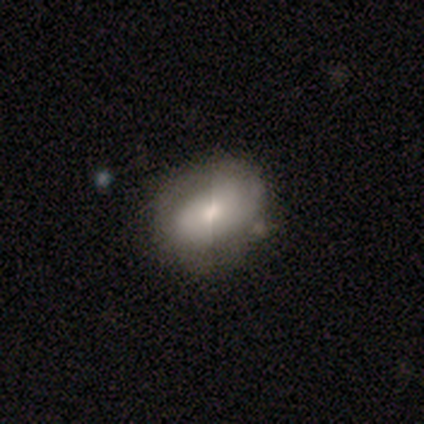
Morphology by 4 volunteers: smooth_or_featured: smooth (p=0.50) [tied with: star or artifact p=0.50]
how_rounded: in between (p=1.00)
merging: none (p=0.50) [tied with: minor disturbance p=0.50]